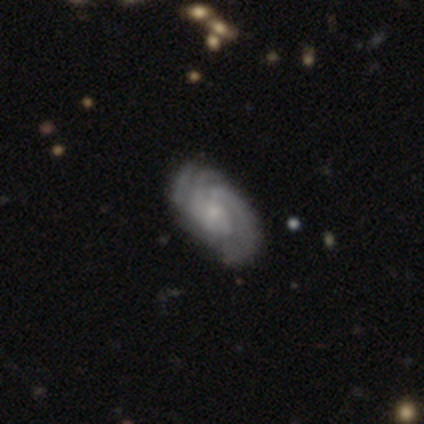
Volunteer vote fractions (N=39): Smooth or featured? featured or disk (79%)
Edge-on disk? no (100%)
Bar? no (65%)
Spiral arms? yes (97%)
Spiral winding? tight (57%)
Spiral arm count? can't tell (47%)
Bulge size? small (65%)
Merging? none (69%)